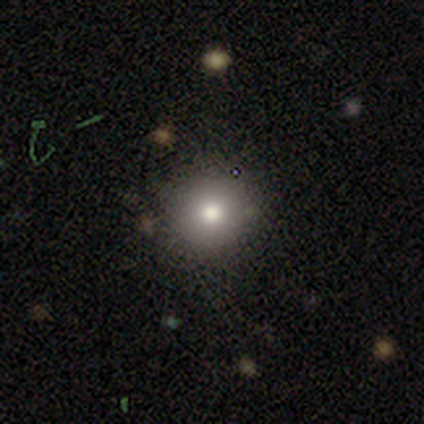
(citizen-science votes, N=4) smooth 50%, featured or disk 25%, star or artifact 25%. Down the decision tree: how rounded — round (100%); merging — none (67%).